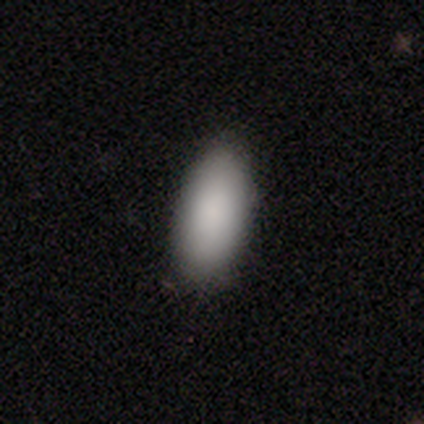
Volunteers were most divided on "merging": none: 84%, minor disturbance: 14%, major disturbance: 3%, merger: 0%. More confident: smooth or featured — smooth (92%); how rounded — in between (86%).